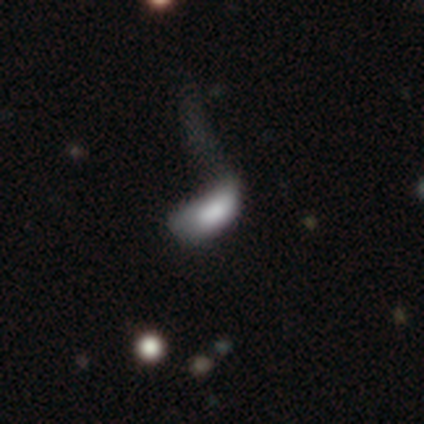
Smooth or featured?
  - smooth: 53% *
  - featured or disk: 35%
  - star or artifact: 12%
How rounded?
  - in between: 93% *
  - cigar-shaped: 7%
  - round: 0%
Merging?
  - major disturbance: 38% *
  - minor disturbance: 15%
  - none: 4%
  - merger: 1%